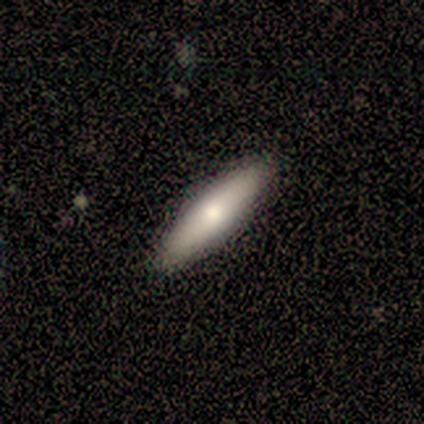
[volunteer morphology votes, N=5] smooth_or_featured: smooth (p=1.00)
how_rounded: cigar-shaped (p=0.60) [alt: in between p=0.40]
merging: none (p=0.80) [alt: minor disturbance p=0.20]